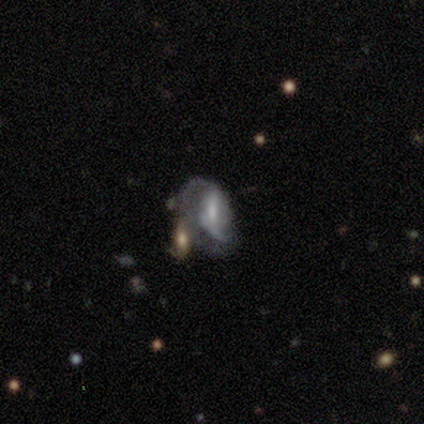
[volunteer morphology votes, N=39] This appears to be a featured or disk galaxy (69%) with a weak bar (52%), 2 (50%) loose (55%) spiral arms (80%) and a small central bulge (52%). Merging: merger (44%).